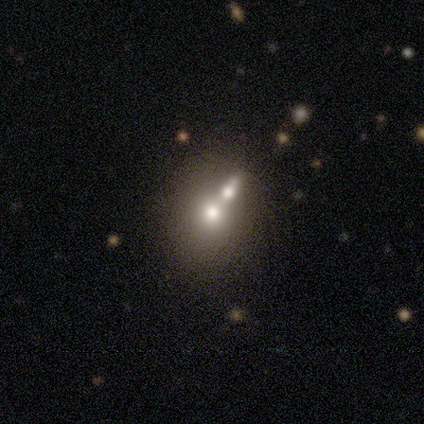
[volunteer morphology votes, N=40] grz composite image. It shows a smooth galaxy with no disk features (60%) that is round (67%). Merging: merger (62%).